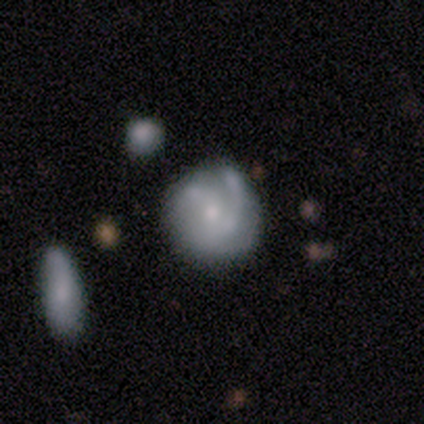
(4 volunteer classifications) A smooth galaxy with no disk features (50%, tied with featured or disk) that is round (100%).

Vote fractions:
- Smooth or featured? smooth: 50% (tied) / featured or disk: 50% (tied) / star or artifact: 0%
- How rounded? round: 100% / in between: 0% / cigar-shaped: 0%
- Merging? merger: 50% / none: 25% / minor disturbance: 25% / major disturbance: 0%